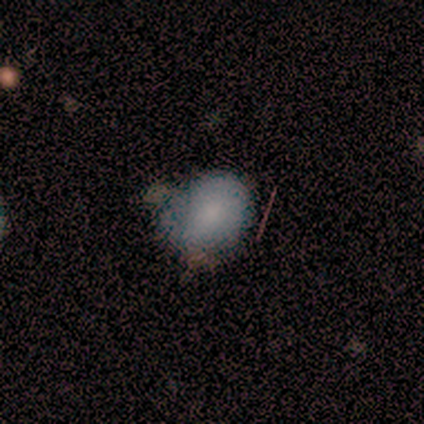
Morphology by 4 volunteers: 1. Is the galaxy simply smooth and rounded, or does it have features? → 100% smooth, 0% featured or disk, 0% star or artifact.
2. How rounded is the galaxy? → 75% round, 25% in between, 0% cigar-shaped.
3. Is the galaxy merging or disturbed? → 50% none (tied), 50% minor disturbance (tied), 0% major disturbance, 0% merger.